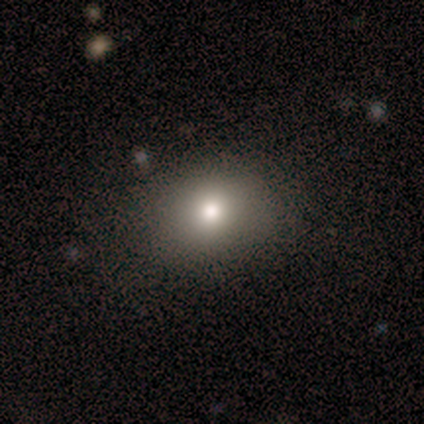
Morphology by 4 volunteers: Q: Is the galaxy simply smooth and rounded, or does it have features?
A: smooth — 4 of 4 (100%).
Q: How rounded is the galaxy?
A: in between — 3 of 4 (75%).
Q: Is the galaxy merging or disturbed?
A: none — 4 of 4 (100%).